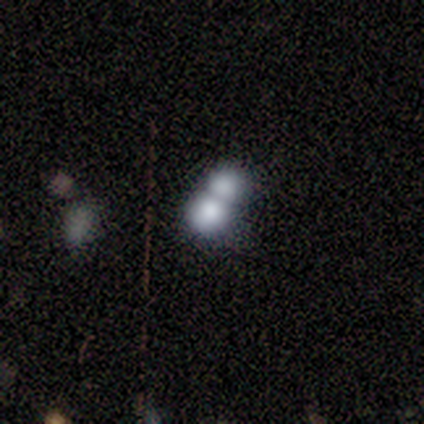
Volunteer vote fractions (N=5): Smooth or featured? 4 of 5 (80%) said smooth. How rounded? 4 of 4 (100%) said round. Merging? 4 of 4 (100%) said merger.